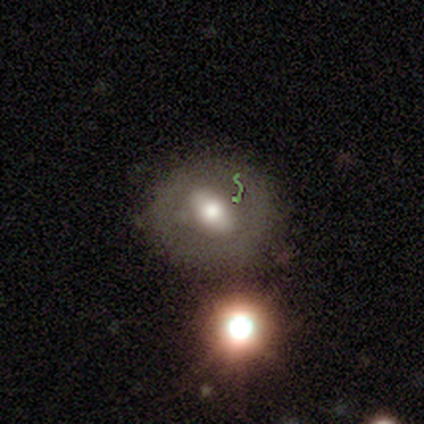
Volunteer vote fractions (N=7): smooth 57%, featured or disk 43%, star or artifact 0%. Down the decision tree: how rounded — in between (75%); merging — none (71%).